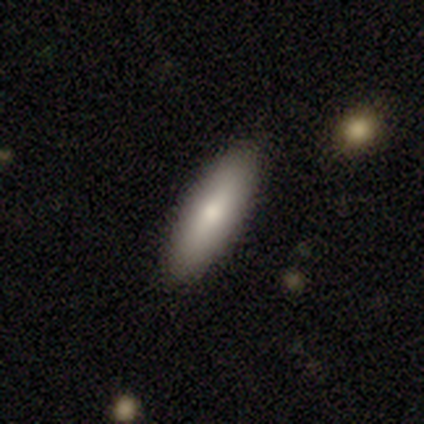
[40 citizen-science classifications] This is clearly a smooth galaxy (80%). How rounded: possibly in between (50%). Merging: clearly none (92%).